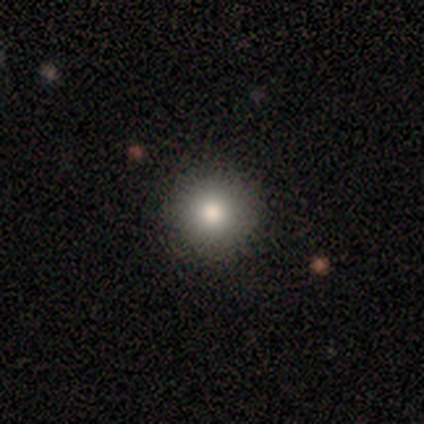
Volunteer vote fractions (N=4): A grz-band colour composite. It shows a smooth galaxy with no disk features (100%) that is round (100%). Merging: none (75%).